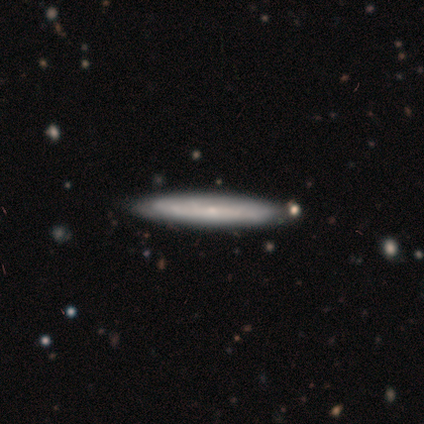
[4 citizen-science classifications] Volunteers were most divided on "smooth or featured" (2-way tie): smooth: 50%, featured or disk: 50%, star or artifact: 0%. More confident: how rounded — cigar-shaped (100%); merging — none (100%).